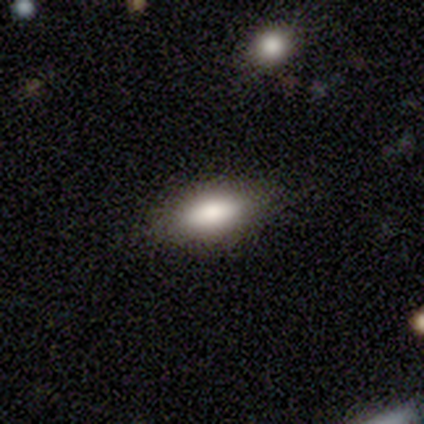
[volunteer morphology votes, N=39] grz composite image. It shows a smooth galaxy with no disk features (74%) that is in between round and cigar-shaped (83%). Merging: none (86%).